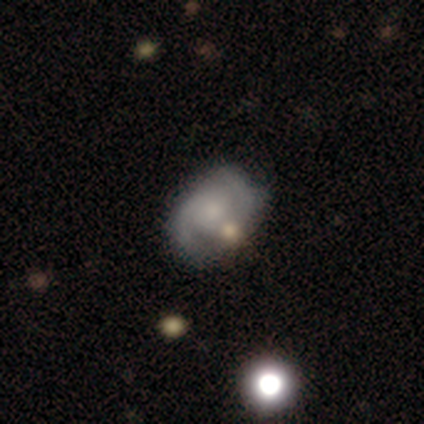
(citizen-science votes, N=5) Smooth or featured? 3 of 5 (60%) said featured or disk. Edge-on disk? 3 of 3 (100%) said no. Bar? 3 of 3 (100%) said no. Spiral arms? 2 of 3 (67%) said yes. Spiral winding? 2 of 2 (100%) said medium. Spiral arm count? 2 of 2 (100%) said 2. Bulge size? 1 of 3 (33%, tied with moderate and small) said dominant. Merging? 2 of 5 (40%, tied with minor disturbance) said none.